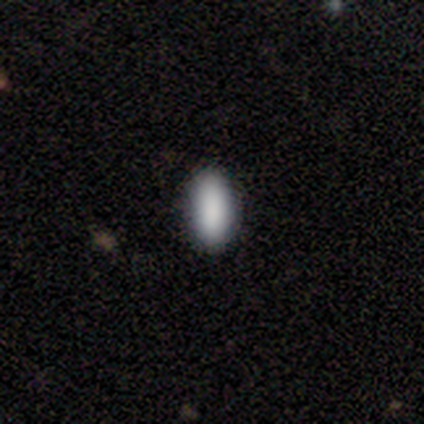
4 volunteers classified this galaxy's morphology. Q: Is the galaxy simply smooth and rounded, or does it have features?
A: smooth — 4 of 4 (100%).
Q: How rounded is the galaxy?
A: in between — 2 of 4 (50%, tied with cigar-shaped).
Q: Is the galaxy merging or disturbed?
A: none — 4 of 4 (100%).